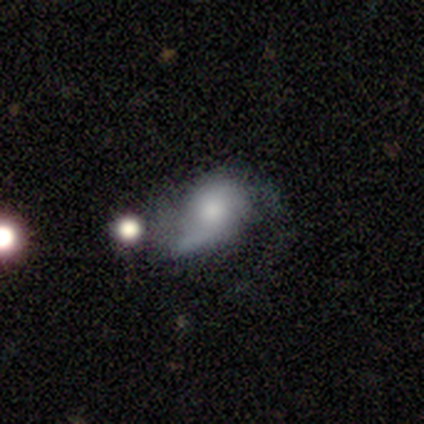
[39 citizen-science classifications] Overall: featured or disk (69%). Edge-on disk: no (100%). Bar: no (85%). Spiral arms: yes (70%). Spiral arm count: 2 (53%; 1 26%). Spiral winding: loose (53%; medium 32%). Bulge size: moderate (41%; small 30%). Merging: major disturbance (49%; minor disturbance 30%).